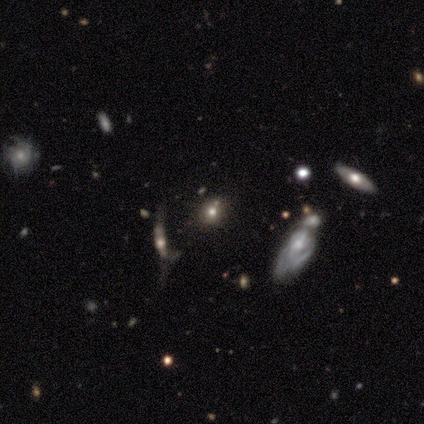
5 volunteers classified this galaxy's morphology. smooth_or_featured: smooth (p=0.40) [tied with: featured or disk p=0.40]
how_rounded: round (p=1.00)
merging: none (p=0.50) [alt: minor disturbance p=0.25]